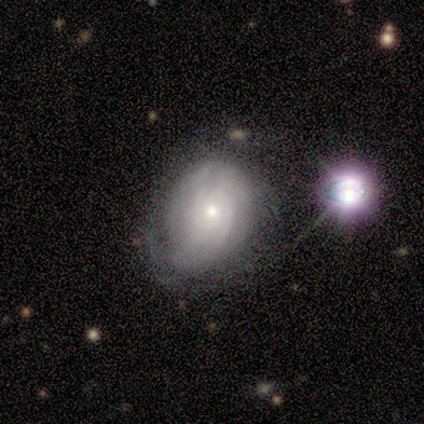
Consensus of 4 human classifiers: Smooth or featured?
  - featured or disk: 100% *
  - smooth: 0%
  - star or artifact: 0%
Edge-on disk?
  - no: 100% *
  - yes: 0%
Bar?
  - no: 50% *
  - strong: 25%
  - weak: 25%
Spiral arms?
  - yes: 75% *
  - no: 25%
Spiral winding?
  - tight: 67% *
  - loose: 33%
  - medium: 0%
Spiral arm count?
  - 3: 33% * (tied)
  - 4: 33% * (tied)
  - can't tell: 33% * (tied)
  - 1: 0%
  - 2: 0%
  - more than 4: 0%
Bulge size?
  - small: 75% *
  - moderate: 25%
  - dominant: 0%
  - large: 0%
  - none: 0%
Merging?
  - none: 100% *
  - minor disturbance: 0%
  - major disturbance: 0%
  - merger: 0%